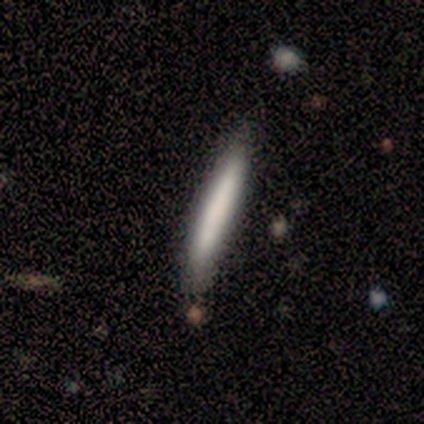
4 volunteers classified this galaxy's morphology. Overall: smooth (75%). How rounded: cigar-shaped (100%). Merging: none (100%).